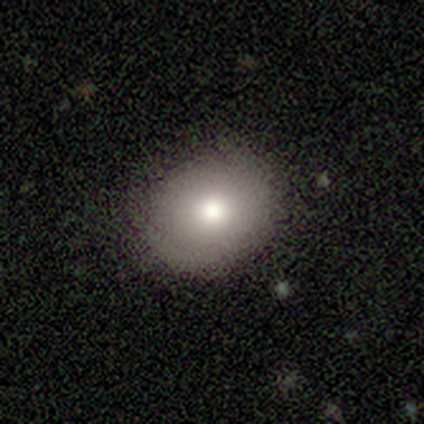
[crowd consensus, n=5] smooth-or-featured: smooth: 80% | star or artifact: 20% | featured or disk: 0%
  how-rounded: round: 50% (tied) | in between: 50% (tied) | cigar-shaped: 0%
  merging: none: 100% | minor disturbance: 0% | major disturbance: 0% | merger: 0%